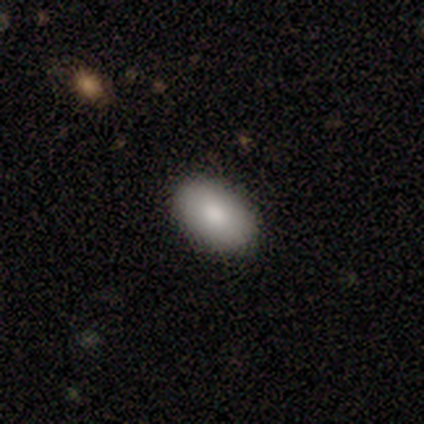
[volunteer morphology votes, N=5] Consensus on every question: smooth or featured — smooth (100%); how rounded — in between (100%); merging — none (100%).